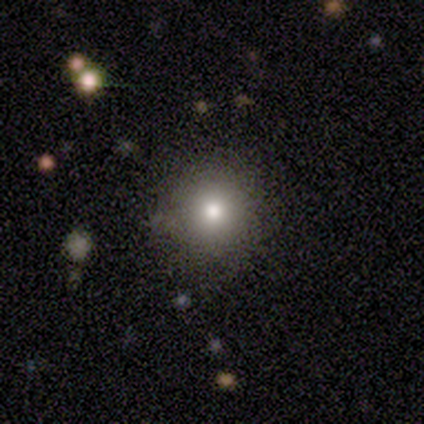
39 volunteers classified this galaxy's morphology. Smooth or featured: smooth — 69% (star or artifact — 21%)
How rounded: round — 89% (in between — 11%)
Merging: none — 87% (minor disturbance — 10%)